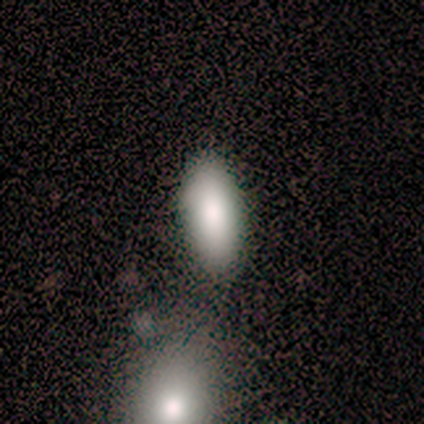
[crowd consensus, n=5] Q: Smooth or featured?
A: smooth (100%)
Q: How rounded?
A: in between (100%)
Q: Merging?
A: none (60%); runner-up: minor disturbance (40%)